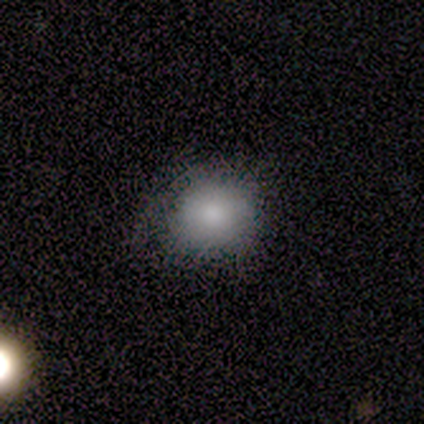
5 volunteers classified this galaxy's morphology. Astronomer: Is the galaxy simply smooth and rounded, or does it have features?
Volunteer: smooth — 60%.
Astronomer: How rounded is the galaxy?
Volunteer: round — 100%.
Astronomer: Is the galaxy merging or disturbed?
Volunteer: none — 50%, tied with minor disturbance at 50%.